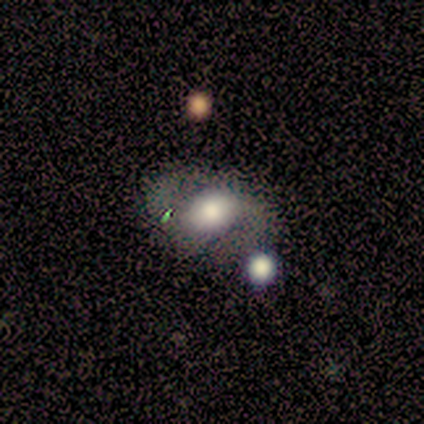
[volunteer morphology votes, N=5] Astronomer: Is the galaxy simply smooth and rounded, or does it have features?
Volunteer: featured or disk — 60% (runner-up: smooth, 40%).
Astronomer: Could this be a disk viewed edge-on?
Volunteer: no — 100%.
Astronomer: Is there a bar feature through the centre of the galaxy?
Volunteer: no — 67%.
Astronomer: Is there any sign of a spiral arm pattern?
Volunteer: yes — 67%.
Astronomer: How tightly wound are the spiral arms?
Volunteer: loose — 100%.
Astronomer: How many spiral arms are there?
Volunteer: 2 — 100%.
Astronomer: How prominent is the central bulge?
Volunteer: large — 67%.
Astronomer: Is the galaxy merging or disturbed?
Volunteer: none — 60%.